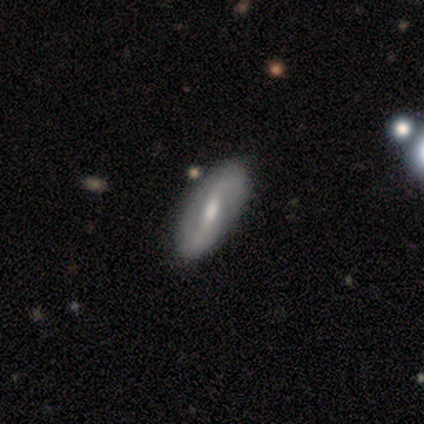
Smooth or featured?
  - featured or disk: 60% *
  - smooth: 40%
  - star or artifact: 0%
Edge-on disk?
  - no: 100% *
  - yes: 0%
Bar?
  - strong: 33% * (tied)
  - weak: 33% * (tied)
  - no: 33% * (tied)
Spiral arms?
  - yes: 100% *
  - no: 0%
Spiral winding?
  - loose: 100% *
  - tight: 0%
  - medium: 0%
Spiral arm count?
  - 2: 100% *
  - 1: 0%
  - 3: 0%
  - 4: 0%
  - more than 4: 0%
  - can't tell: 0%
Bulge size?
  - none: 67% *
  - moderate: 33%
  - dominant: 0%
  - large: 0%
  - small: 0%
Merging?
  - none: 80% *
  - major disturbance: 20%
  - minor disturbance: 0%
  - merger: 0%